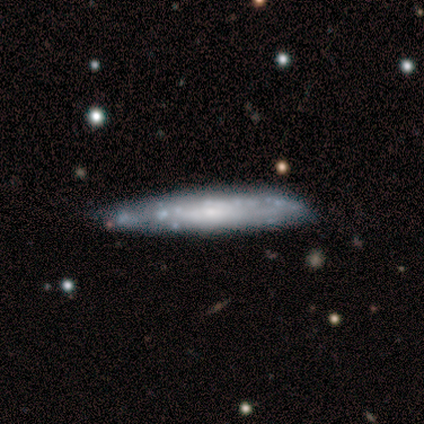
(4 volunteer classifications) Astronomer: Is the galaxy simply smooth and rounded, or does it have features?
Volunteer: smooth — 50%, tied with featured or disk at 50%.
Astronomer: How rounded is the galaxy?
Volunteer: in between — 50%, tied with cigar-shaped at 50%.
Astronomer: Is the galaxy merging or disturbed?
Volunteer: none — 50%, tied with minor disturbance at 50%.